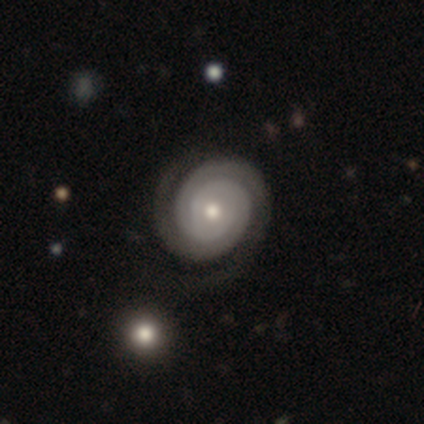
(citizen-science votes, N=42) Morphology: type=featured or disk (98%); edge-on=no (100%); bar=no (83%); spiral arms=yes (98%); winding=tight (88%); arm count=2 (88%); bulge=moderate (85%); merging=none (78%).